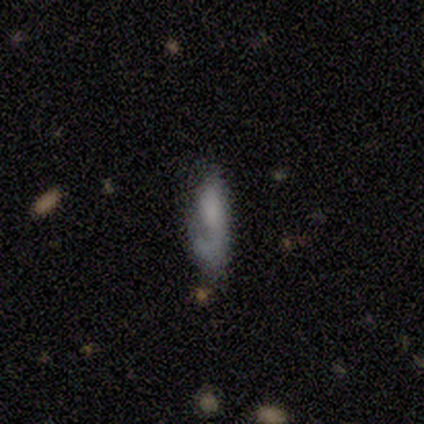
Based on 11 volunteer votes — Smooth or featured: smooth — 73% (featured or disk — 27%)
How rounded: cigar-shaped — 62% (in between — 38%)
Merging: none — 36% (tied with major disturbance — 36%)